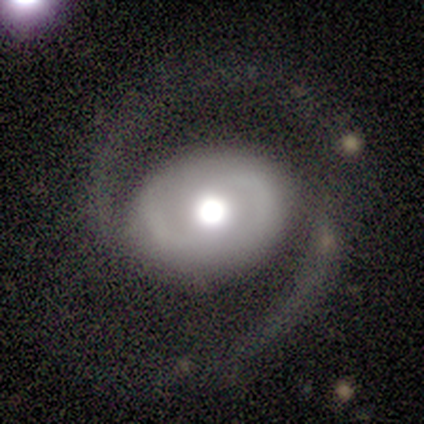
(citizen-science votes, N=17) smooth_or_featured: featured or disk (p=0.82) [alt: smooth p=0.18]
disk_edge_on: no (p=1.00)
bar: no (p=0.79) [alt: strong p=0.14]
has_spiral_arms: yes (p=1.00)
spiral_winding: medium (p=0.57) [alt: loose p=0.36]
spiral_arm_count: 2 (p=0.93) [alt: can't tell p=0.07]
bulge_size: moderate (p=0.64) [alt: large p=0.21]
merging: none (p=0.76) [alt: minor disturbance p=0.18]